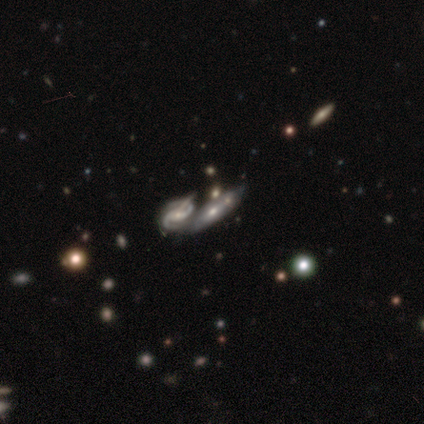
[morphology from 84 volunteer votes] This appears to be a featured or disk galaxy (68%) with no bar (45%), 2 (81%) medium (59%) spiral arms (73%) and a small central bulge (57%). Merging: merger (64%).